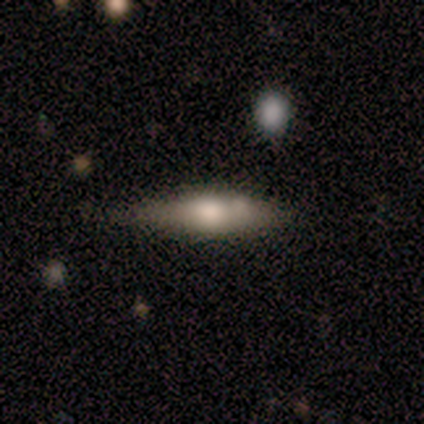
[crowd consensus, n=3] Overall: smooth (67%; featured or disk 33%). How rounded: cigar-shaped (100%). Merging: minor disturbance (67%; none 33%).